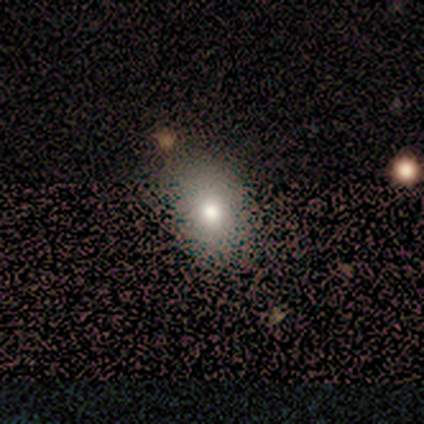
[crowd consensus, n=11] A smooth galaxy with no disk features (64%) that is in between round and cigar-shaped (100%).

Vote fractions:
- Smooth or featured? smooth: 64% / featured or disk: 18% / star or artifact: 18%
- How rounded? in between: 100% / round: 0% / cigar-shaped: 0%
- Merging? none: 78% / minor disturbance: 22% / major disturbance: 0% / merger: 0%